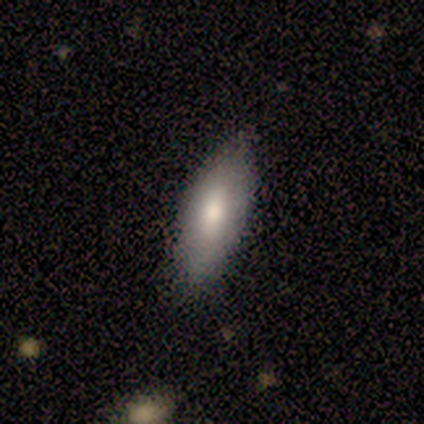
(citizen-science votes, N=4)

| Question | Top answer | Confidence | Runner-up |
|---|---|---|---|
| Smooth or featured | smooth | 100% | — |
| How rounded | in between | 75% | cigar-shaped (25%) |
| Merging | none | 100% | — |